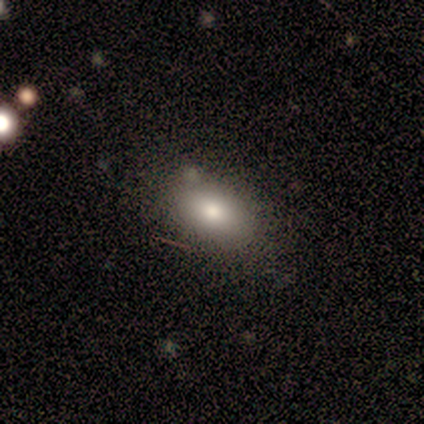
Smooth or featured?
  - smooth: 80% *
  - featured or disk: 20%
  - star or artifact: 0%
How rounded?
  - in between: 75% *
  - round: 25%
  - cigar-shaped: 0%
Merging?
  - none: 80% *
  - minor disturbance: 20%
  - major disturbance: 0%
  - merger: 0%